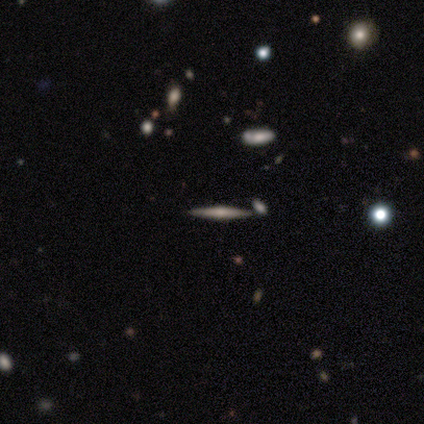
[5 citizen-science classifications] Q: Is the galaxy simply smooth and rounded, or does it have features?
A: featured or disk — 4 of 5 (80%).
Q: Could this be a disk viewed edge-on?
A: yes — 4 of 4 (100%).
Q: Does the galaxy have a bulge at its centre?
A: rounded — 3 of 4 (75%).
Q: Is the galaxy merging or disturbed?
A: none — 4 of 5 (80%).